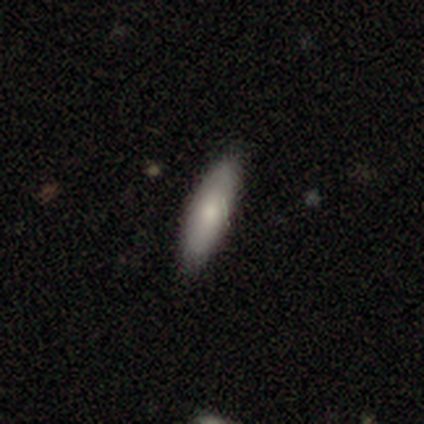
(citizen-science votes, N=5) Morphology: type=smooth (100%); roundness=in between (60%); merging=none (80%).